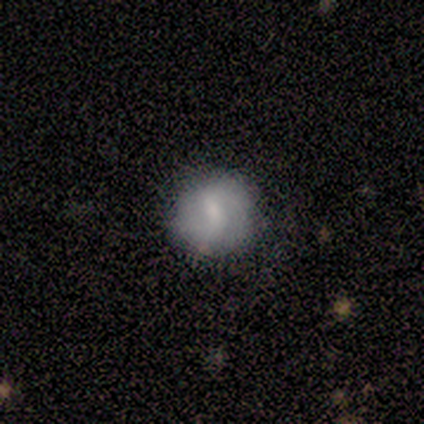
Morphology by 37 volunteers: smooth 62%, featured or disk 30%, star or artifact 8%. Down the decision tree: how rounded — round (100%); merging — none (88%).